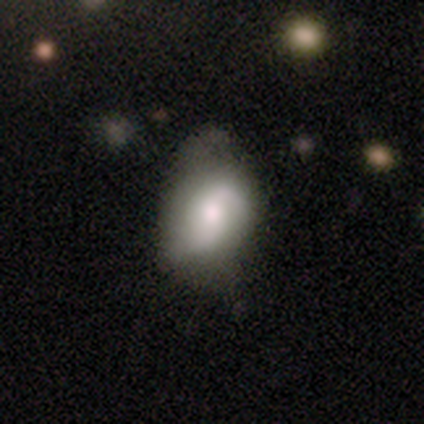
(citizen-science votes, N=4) smooth-or-featured: smooth: 75% | featured or disk: 25% | star or artifact: 0%
  how-rounded: in between: 100% | round: 0% | cigar-shaped: 0%
  merging: none: 50% | minor disturbance: 25% | merger: 25% | major disturbance: 0%